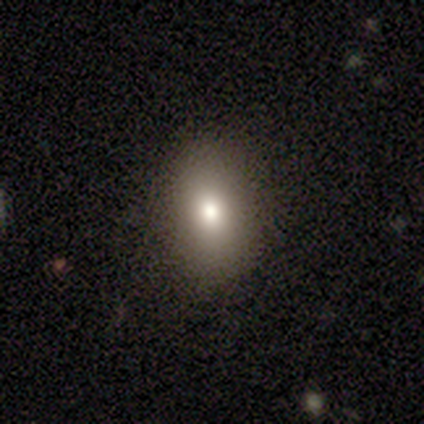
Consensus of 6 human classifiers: Smooth or featured?
  - smooth: 67% *
  - featured or disk: 17%
  - star or artifact: 17%
How rounded?
  - round: 50% * (tied)
  - in between: 50% * (tied)
  - cigar-shaped: 0%
Merging?
  - none: 100% *
  - minor disturbance: 0%
  - major disturbance: 0%
  - merger: 0%